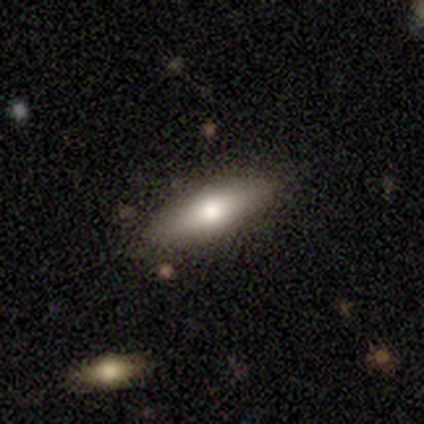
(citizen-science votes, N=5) Smooth or featured: smooth — 60% (featured or disk — 40%)
How rounded: in between — 67% (cigar-shaped — 33%)
Merging: none — 80% (minor disturbance — 20%)